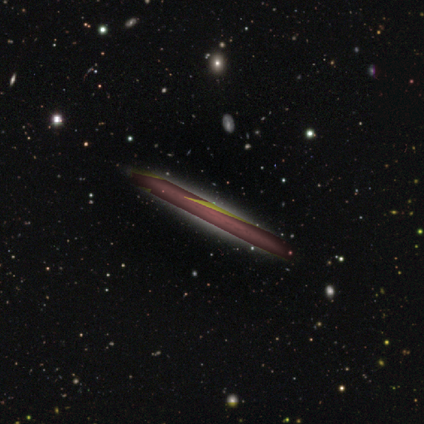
Smooth or featured?
  - star or artifact: 60% *
  - featured or disk: 40%
  - smooth: 0%